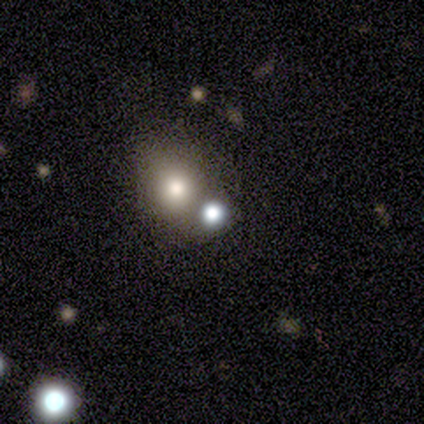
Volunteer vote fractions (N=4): This is possibly a smooth galaxy (50%). How rounded: clearly round (100%). Merging: likely none (67%).